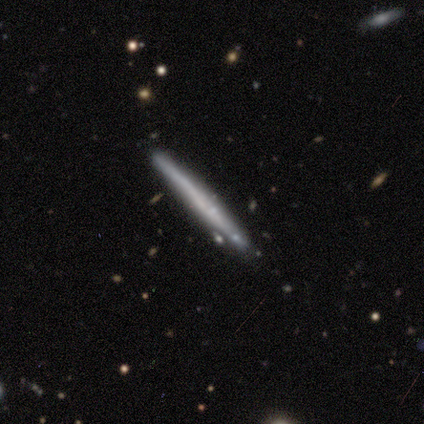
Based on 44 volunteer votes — Q: Smooth or featured?
A: smooth (52%); runner-up: featured or disk (43%)
Q: How rounded?
A: cigar-shaped (100%)
Q: Merging?
A: none (83%); runner-up: minor disturbance (12%)